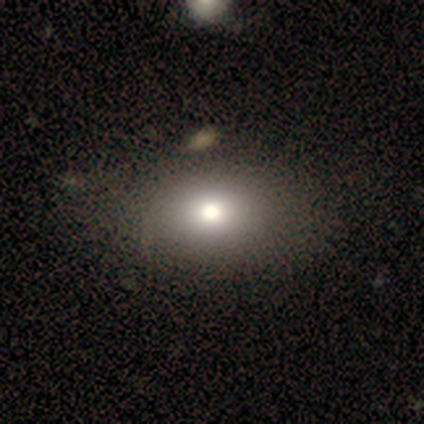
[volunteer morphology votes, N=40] Volunteers were most divided on "smooth or featured": smooth: 75%, featured or disk: 22%, star or artifact: 2%. More confident: how rounded — in between (80%); merging — none (64%).